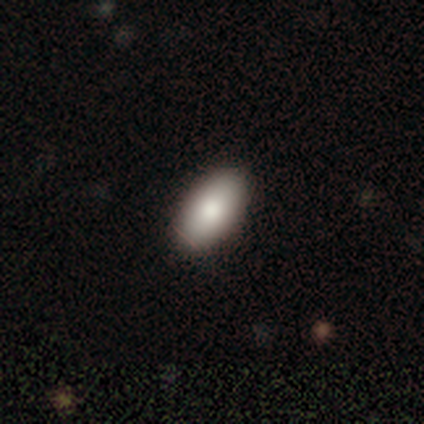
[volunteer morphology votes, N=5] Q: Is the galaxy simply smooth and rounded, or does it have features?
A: smooth — 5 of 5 (100%).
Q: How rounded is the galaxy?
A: in between — 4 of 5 (80%).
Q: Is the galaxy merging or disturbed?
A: none — 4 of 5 (80%).